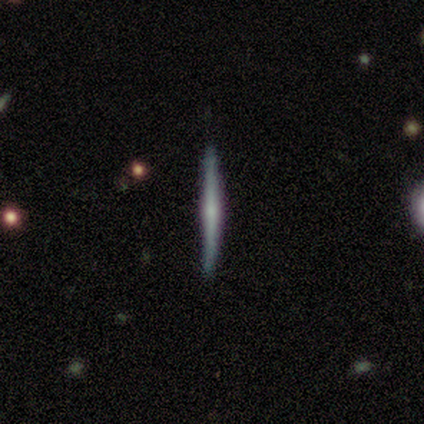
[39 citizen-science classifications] featured or disk 64%, smooth 31%, star or artifact 5%. Down the decision tree: edge-on disk — yes (100%); edge-on bulge — none (48%); merging — none (89%).